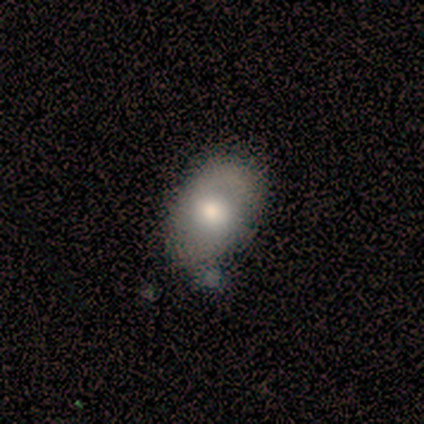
A smooth galaxy with no disk features (60%) that is in between round and cigar-shaped (67%). Merging: none (100%).